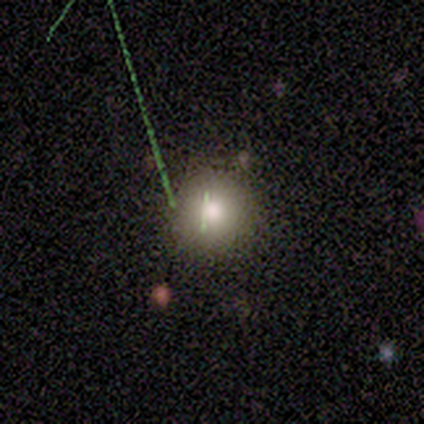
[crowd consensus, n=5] smooth-or-featured: smooth: 100% | featured or disk: 0% | star or artifact: 0%
  how-rounded: round: 100% | in between: 0% | cigar-shaped: 0%
  merging: none: 100% | minor disturbance: 0% | major disturbance: 0% | merger: 0%